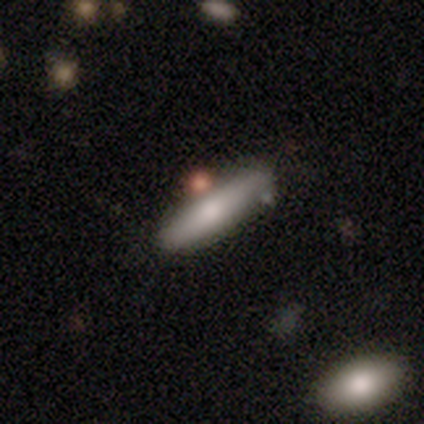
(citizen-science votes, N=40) Smooth or featured? 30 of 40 (75%) said smooth. How rounded? 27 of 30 (90%) said cigar-shaped. Merging? 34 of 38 (89%) said none.